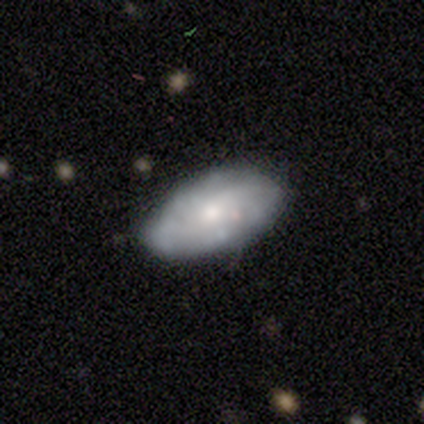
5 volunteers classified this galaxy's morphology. This appears to be a featured or disk galaxy (60%) with no bar (100%), no spiral arms (67%) and a large central bulge (33%, tied with moderate and small). Merging: none (80%).